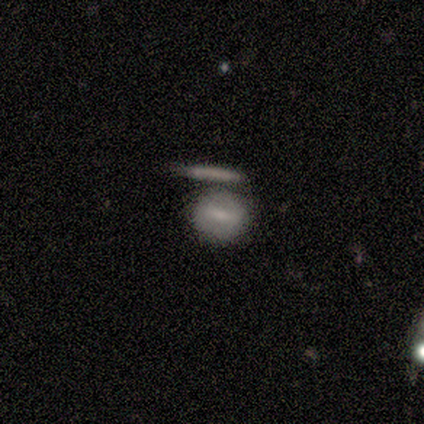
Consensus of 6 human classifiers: A smooth galaxy with no disk features (50%) that is round (67%). Merging: none (60%).